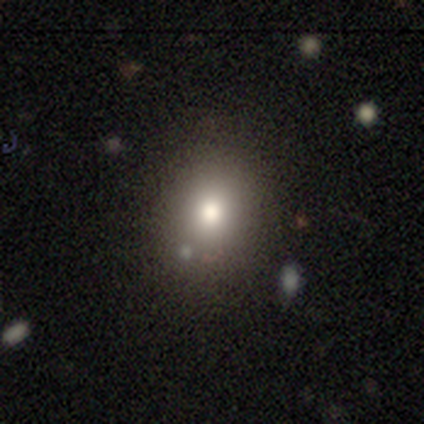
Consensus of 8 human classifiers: smooth 62%, star or artifact 25%, featured or disk 12%. Down the decision tree: how rounded — round (100%); merging — none (83%).